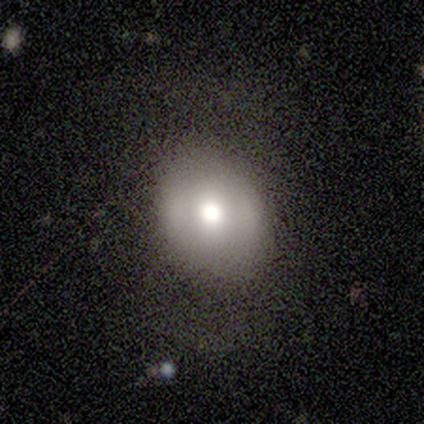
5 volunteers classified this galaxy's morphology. This appears to be a featured or disk galaxy (100%) with no bar (100%), no spiral arms (100%) and a moderate central bulge (80%). Merging: none (100%).